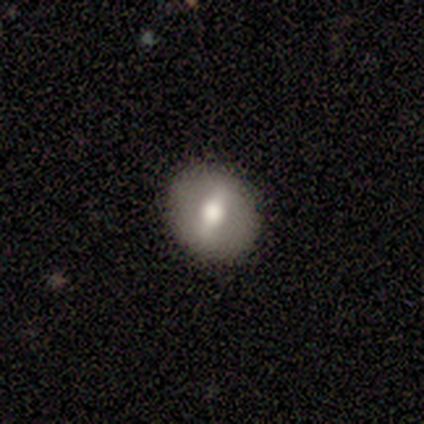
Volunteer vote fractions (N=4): smooth-or-featured: featured or disk: 100% | smooth: 0% | star or artifact: 0%
  disk-edge-on: no: 100% | yes: 0%
    bar: strong: 50% | weak: 25% | no: 25%
    has-spiral-arms: no: 100% | yes: 0%
    bulge-size: large: 50% (tied) | moderate: 50% (tied) | dominant: 0% | small: 0% | none: 0%
  merging: none: 100% | minor disturbance: 0% | major disturbance: 0% | merger: 0%